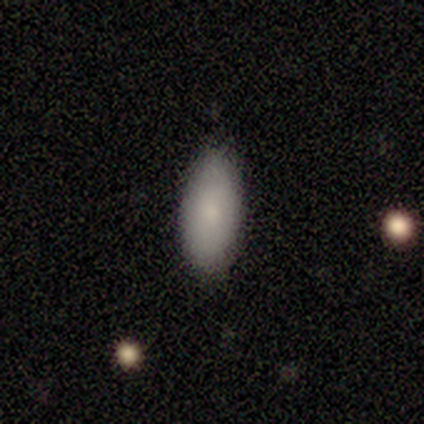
smooth_or_featured: smooth (p=1.00)
how_rounded: in between (p=1.00)
merging: none (p=0.40) [tied with: minor disturbance p=0.40]